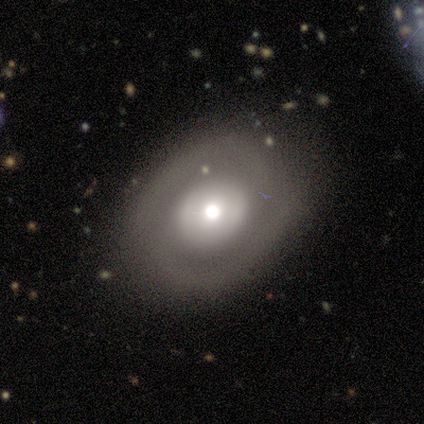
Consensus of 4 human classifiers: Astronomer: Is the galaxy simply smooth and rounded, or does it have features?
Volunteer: featured or disk — 75%.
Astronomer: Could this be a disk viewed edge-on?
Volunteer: no — 100%.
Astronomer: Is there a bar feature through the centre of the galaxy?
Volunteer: no — 100%.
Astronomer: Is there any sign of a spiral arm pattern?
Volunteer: no — 67%.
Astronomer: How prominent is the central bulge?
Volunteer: large — 33%, tied with moderate and small at 33%.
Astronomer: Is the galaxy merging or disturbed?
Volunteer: none — 75%.